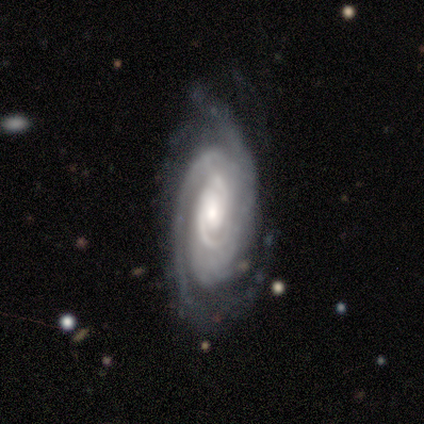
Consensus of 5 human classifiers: featured or disk 100%, smooth 0%, star or artifact 0%. Down the decision tree: edge-on disk — no (100%); bar — no (80%); spiral arms — yes (100%); spiral arm count — 2 (60%); spiral winding — tight (80%); bulge size — small (80%); merging — none (80%).